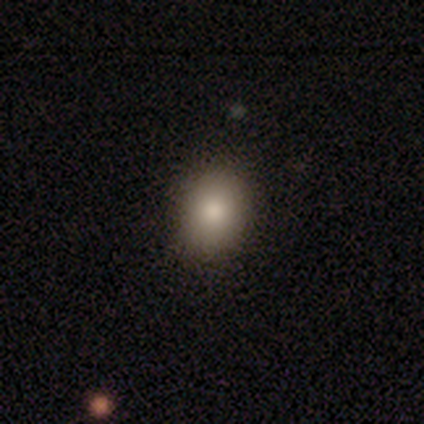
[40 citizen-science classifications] Smooth or featured: smooth — 85% (star or artifact — 15%)
How rounded: round — 50% (tied with in between — 50%)
Merging: none — 88% (minor disturbance — 9%)